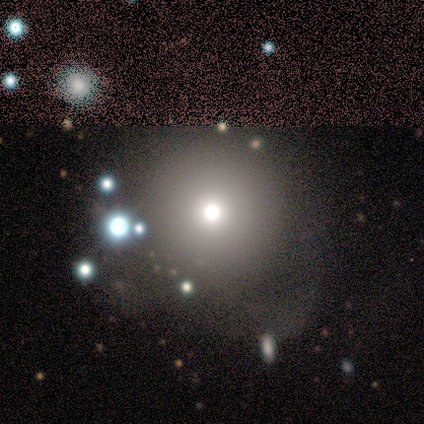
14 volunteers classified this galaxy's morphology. This is likely a smooth galaxy (64%). How rounded: clearly round (89%). Merging: likely none (64%).